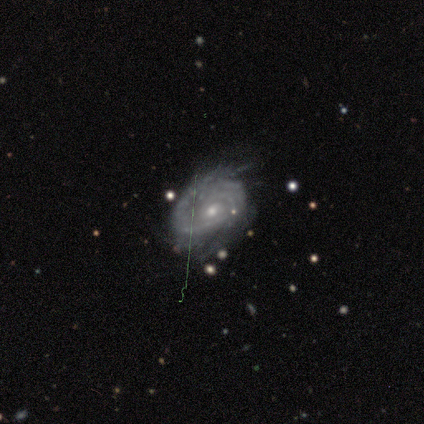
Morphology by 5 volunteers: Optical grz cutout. It shows a featured or disk galaxy (80%) with no bar (100%), medium (67%) spiral arms (75%) and a small central bulge (100%). Merging: none (100%).